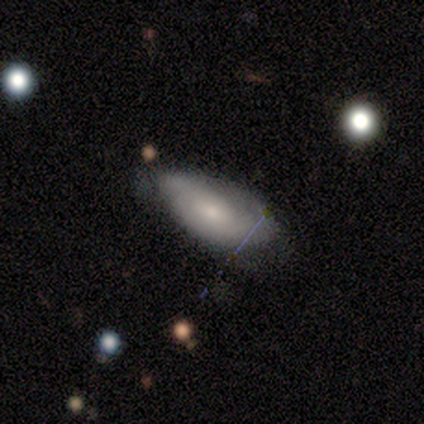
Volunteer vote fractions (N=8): smooth_or_featured: featured or disk (p=0.62) [alt: smooth p=0.38]
disk_edge_on: no (p=0.80) [alt: yes p=0.20]
bar: no (p=0.75) [alt: weak p=0.25]
has_spiral_arms: yes (p=0.75) [alt: no p=0.25]
spiral_winding: tight (p=1.00)
spiral_arm_count: 2 (p=0.33) [tied with: 3 p=0.33, can't tell p=0.33]
bulge_size: small (p=0.75) [alt: moderate p=0.25]
merging: none (p=0.62) [alt: minor disturbance p=0.38]